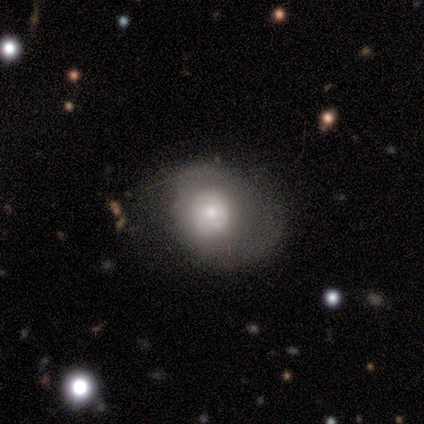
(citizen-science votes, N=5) This appears to be a smooth galaxy with no disk features (40%, tied with featured or disk) that is round (100%). Merging: none (50%).